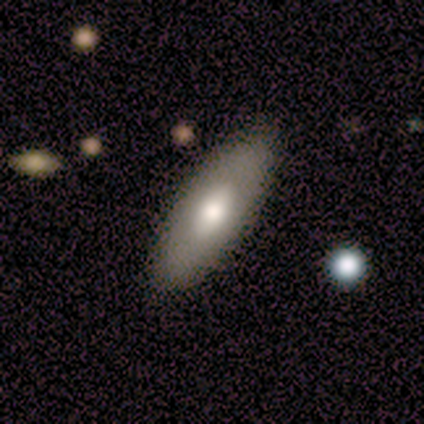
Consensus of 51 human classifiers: Smooth or featured? smooth (61%)
How rounded? in between (84%)
Merging? none (83%)